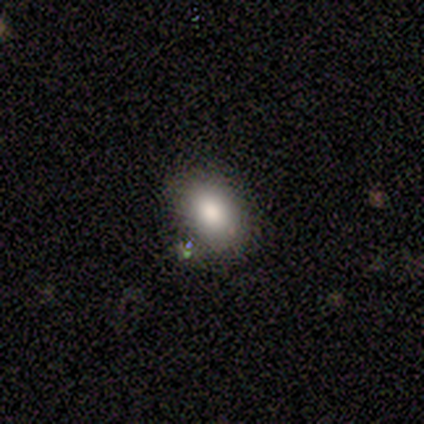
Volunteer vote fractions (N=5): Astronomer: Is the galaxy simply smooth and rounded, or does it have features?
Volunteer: smooth — 100%.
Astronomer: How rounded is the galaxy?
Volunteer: in between — 60% (runner-up: round, 40%).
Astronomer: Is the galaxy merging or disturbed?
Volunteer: none — 100%.